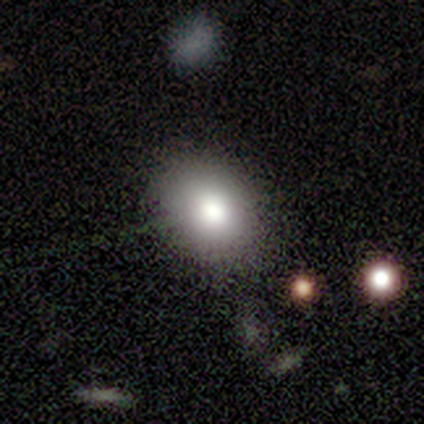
Volunteers were most divided on "how rounded": in between: 75%, round: 25%, cigar-shaped: 0%. More confident: smooth or featured — smooth (80%); merging — none (80%).